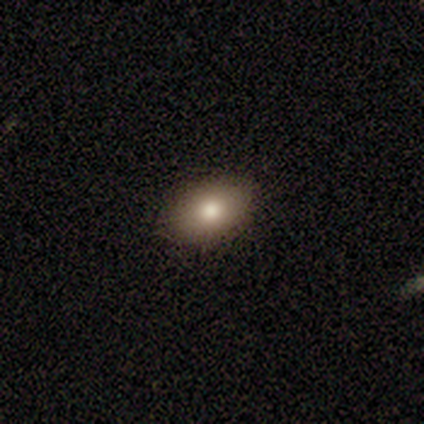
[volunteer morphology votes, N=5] This appears to be a smooth galaxy with no disk features (100%) that is in between round and cigar-shaped (80%). Merging: none (60%).